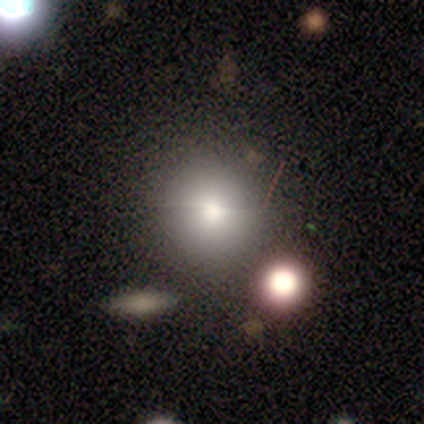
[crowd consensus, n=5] A smooth galaxy with no disk features (80%) that is round (100%). Merging: none (100%).